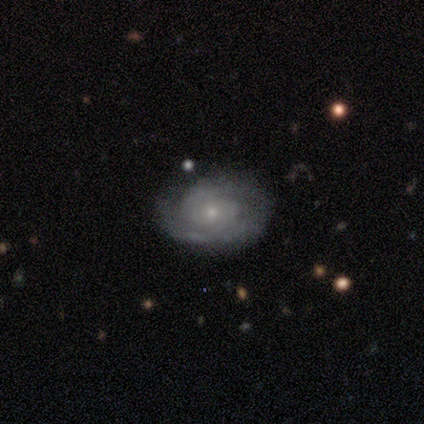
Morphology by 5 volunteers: A featured or disk galaxy (80%) with no bar (100%), 2 (50%) tight (75%) spiral arms (100%) and a small central bulge (100%).

Vote fractions:
- Smooth or featured? featured or disk: 80% / smooth: 20% / star or artifact: 0%
- Edge-on disk? no: 100% / yes: 0%
- Bar? no: 100% / strong: 0% / weak: 0%
- Spiral arms? yes: 100% / no: 0%
- Spiral winding? tight: 75% / medium: 25% / loose: 0%
- Spiral arm count? 2: 50% / more than 4: 25% / can't tell: 25% / 1: 0% / 3: 0% / 4: 0%
- Bulge size? small: 100% / dominant: 0% / large: 0% / moderate: 0% / none: 0%
- Merging? none: 80% / minor disturbance: 20% / major disturbance: 0% / merger: 0%